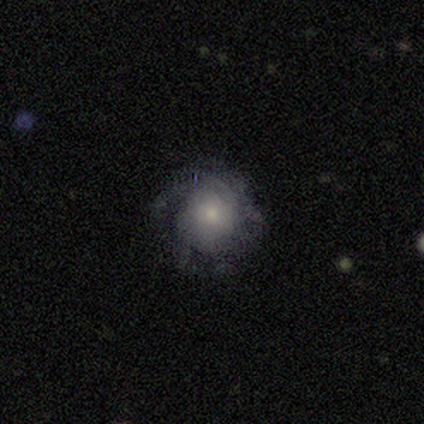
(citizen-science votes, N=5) Overall: featured or disk (60%; smooth 20%). Edge-on disk: no (100%). Bar: no (100%). Spiral arms: yes (67%; no 33%). Spiral arm count: 2 (50%, tied with can't tell). Spiral winding: medium (100%). Bulge size: small (100%). Merging: none (75%).